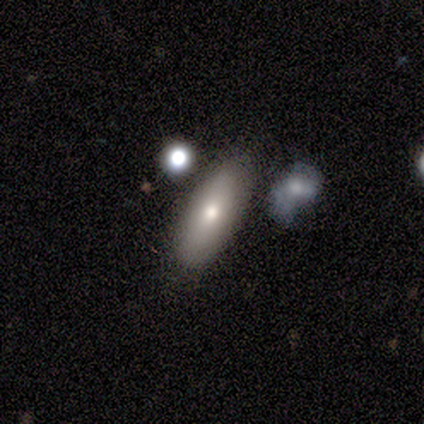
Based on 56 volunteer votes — Smooth or featured?
  - smooth: 70% *
  - featured or disk: 23%
  - star or artifact: 7%
How rounded?
  - in between: 77% *
  - cigar-shaped: 21%
  - round: 3%
Merging?
  - none: 88% *
  - minor disturbance: 8%
  - merger: 4%
  - major disturbance: 0%